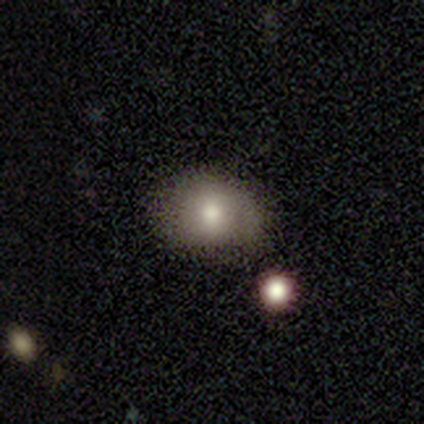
smooth_or_featured: smooth (p=0.76) [alt: featured or disk p=0.16]
how_rounded: in between (p=0.52) [alt: round p=0.48]
merging: none (p=0.66) [alt: minor disturbance p=0.23]